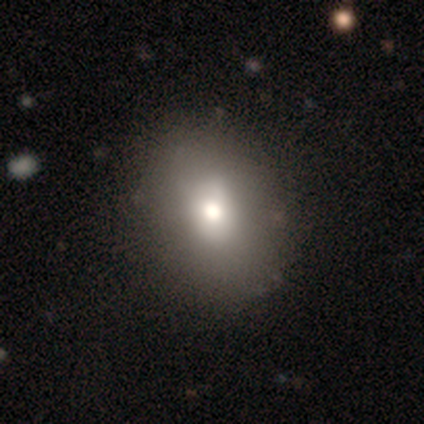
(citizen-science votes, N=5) smooth-or-featured: smooth: 60% | featured or disk: 20% | star or artifact: 20%
  how-rounded: in between: 67% | cigar-shaped: 33% | round: 0%
  merging: none: 75% | major disturbance: 25% | minor disturbance: 0% | merger: 0%